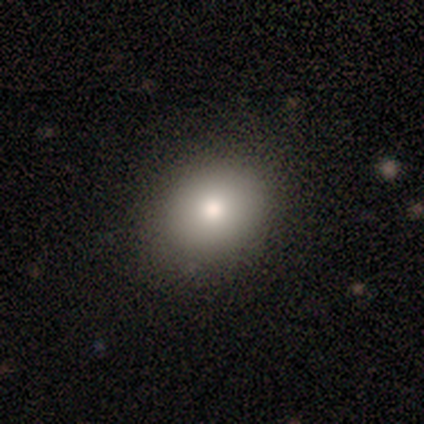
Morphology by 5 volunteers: Smooth or featured: featured or disk — 60% (smooth — 20%)
Edge-on disk: no — 100%
Bar: no — 100%
Spiral arms: no — 100%
Bulge size: small — 67% (large — 33%)
Merging: none — 75% (minor disturbance — 25%)